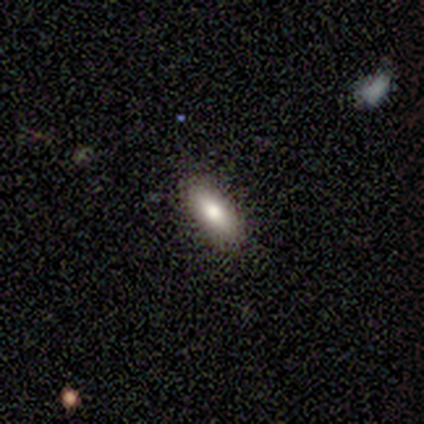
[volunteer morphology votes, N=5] Smooth or featured?
  - smooth: 100% *
  - featured or disk: 0%
  - star or artifact: 0%
How rounded?
  - in between: 60% *
  - cigar-shaped: 40%
  - round: 0%
Merging?
  - none: 100% *
  - minor disturbance: 0%
  - major disturbance: 0%
  - merger: 0%